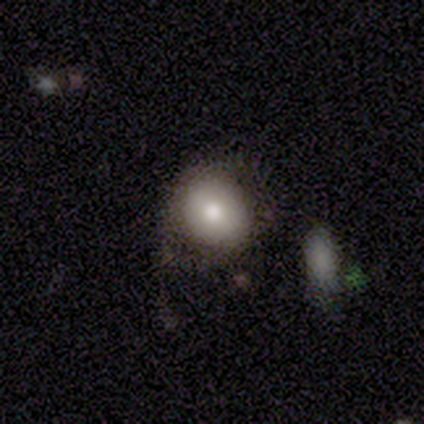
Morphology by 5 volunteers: type=smooth (80%); roundness=round (100%); merging=none (60%).